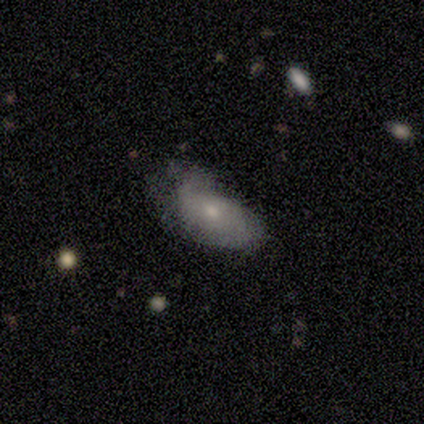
This appears to be a featured or disk galaxy (50%) with no bar (67%), loose (100%) spiral arms (100%) and a small central bulge (67%). Merging: none (60%).